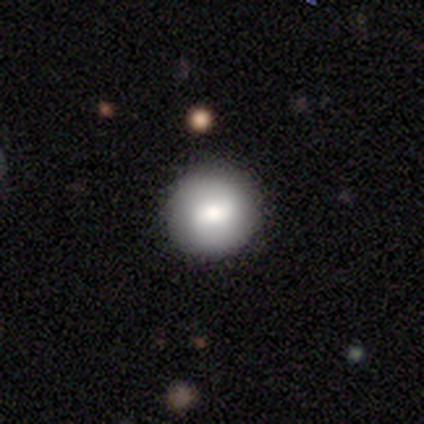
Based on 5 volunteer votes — Morphology: type=smooth (60%); roundness=round (100%); merging=none (60%).